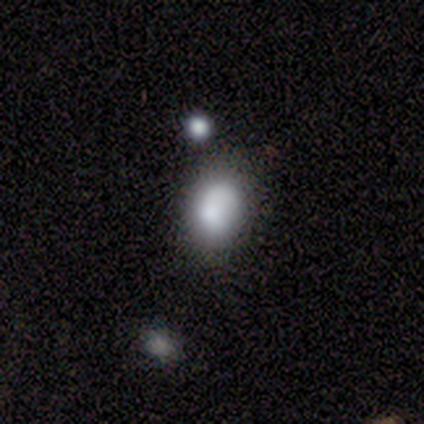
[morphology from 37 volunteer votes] Smooth or featured?
  - smooth: 65% *
  - featured or disk: 27%
  - star or artifact: 8%
How rounded?
  - in between: 83% *
  - round: 17%
  - cigar-shaped: 0%
Merging?
  - none: 62% *
  - minor disturbance: 21%
  - major disturbance: 12%
  - merger: 6%